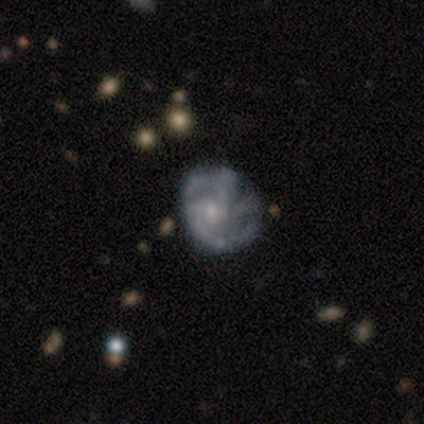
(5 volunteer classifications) smooth-or-featured: featured or disk: 100% | smooth: 0% | star or artifact: 0%
  disk-edge-on: no: 100% | yes: 0%
    bar: no: 100% | strong: 0% | weak: 0%
    has-spiral-arms: yes: 60% | no: 40%
      spiral-winding: medium: 67% | loose: 33% | tight: 0%
      spiral-arm-count: 2: 33% (tied) | 3: 33% (tied) | 4: 33% (tied) | 1: 0% | more than 4: 0% | can't tell: 0%
    bulge-size: moderate: 60% | small: 20% | none: 20% | dominant: 0% | large: 0%
  merging: none: 60% | merger: 40% | minor disturbance: 0% | major disturbance: 0%